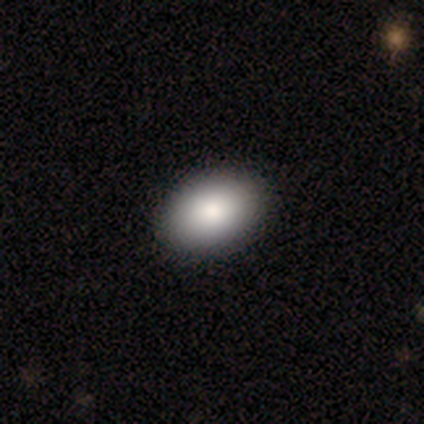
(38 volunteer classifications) Volunteers were most divided on "smooth or featured": smooth: 84%, featured or disk: 13%, star or artifact: 3%. More confident: merging — none (100%); how rounded — in between (97%).